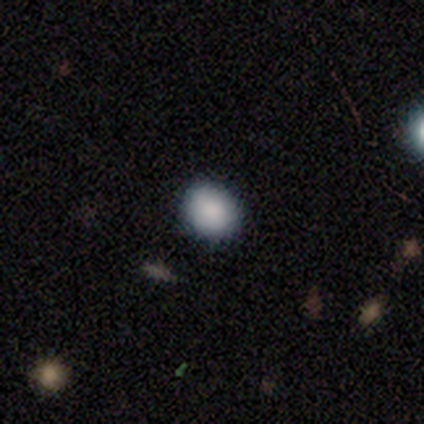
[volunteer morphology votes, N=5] Overall: smooth (60%; star or artifact 40%). How rounded: round (100%). Merging: none (100%).